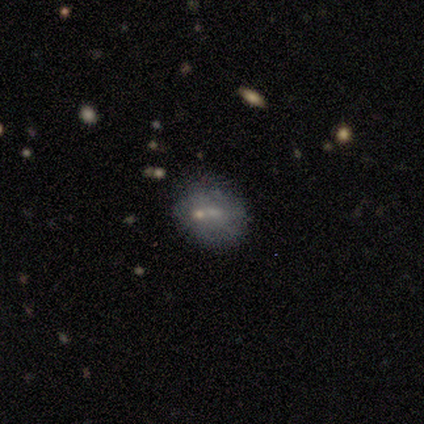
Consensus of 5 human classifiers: A smooth galaxy with no disk features (80%) that is round (75%). Merging: none (40%).